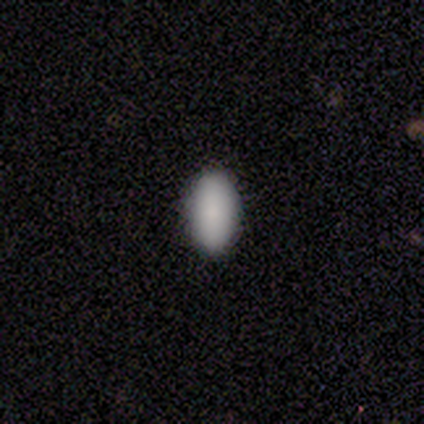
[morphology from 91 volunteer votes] smooth 90%, star or artifact 8%, featured or disk 2%. Down the decision tree: how rounded — in between (95%); merging — none (93%).